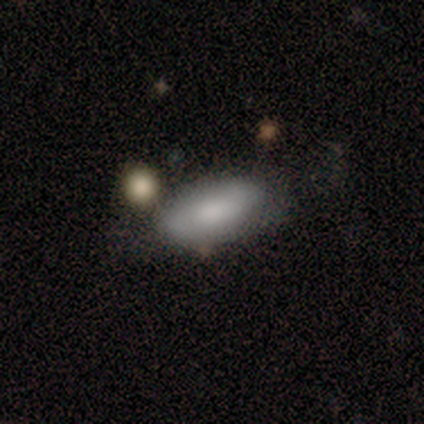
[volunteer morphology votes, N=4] smooth_or_featured: smooth (p=1.00)
how_rounded: in between (p=0.75) [alt: cigar-shaped p=0.25]
merging: none (p=1.00)